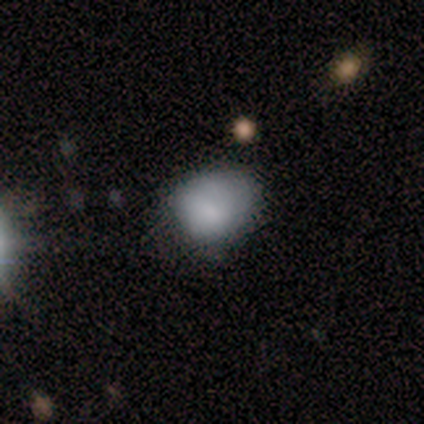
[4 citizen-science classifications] A smooth galaxy with no disk features (100%) that is round (50%, tied with in between). Merging: none (100%).